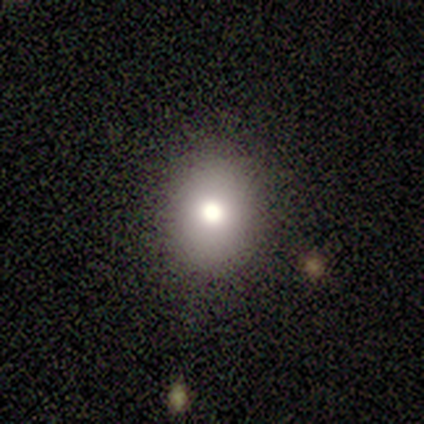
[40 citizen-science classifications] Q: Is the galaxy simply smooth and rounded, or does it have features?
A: smooth — 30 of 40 (75%).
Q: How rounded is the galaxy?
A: round — 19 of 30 (63%).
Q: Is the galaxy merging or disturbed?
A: none — 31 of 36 (86%).